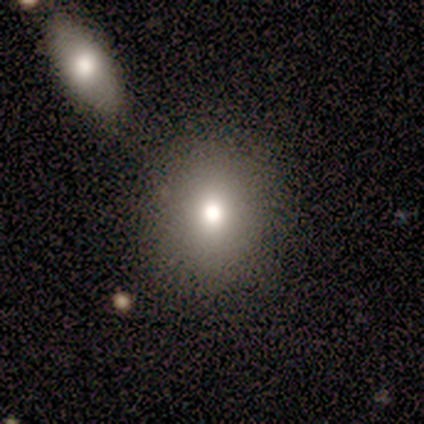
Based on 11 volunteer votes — A smooth galaxy with no disk features (100%) that is round (82%).

Vote fractions:
- Smooth or featured? smooth: 100% / featured or disk: 0% / star or artifact: 0%
- How rounded? round: 82% / in between: 18% / cigar-shaped: 0%
- Merging? none: 64% / minor disturbance: 36% / major disturbance: 0% / merger: 0%